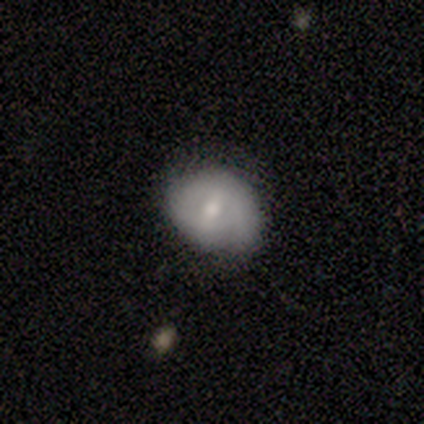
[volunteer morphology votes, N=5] Smooth or featured?
  - smooth: 60% *
  - featured or disk: 40%
  - star or artifact: 0%
How rounded?
  - round: 67% *
  - in between: 33%
  - cigar-shaped: 0%
Merging?
  - none: 60% *
  - minor disturbance: 40%
  - major disturbance: 0%
  - merger: 0%